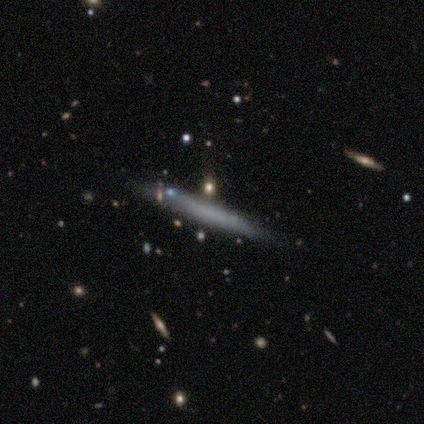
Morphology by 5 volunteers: This appears to be a featured or disk galaxy (60%) viewed edge-on (100%) with no central bulge (100%). Merging: none (80%).